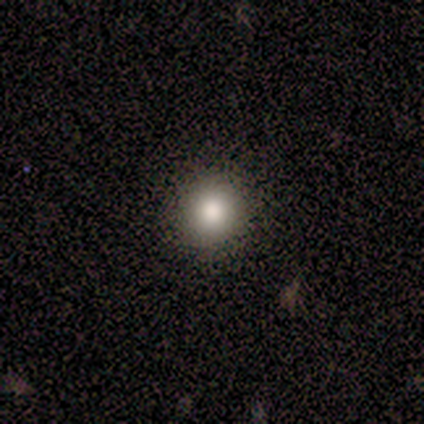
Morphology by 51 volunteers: Smooth or featured: smooth — 88% (featured or disk — 8%)
How rounded: round — 96% (in between — 4%)
Merging: none — 92% (minor disturbance — 4%)